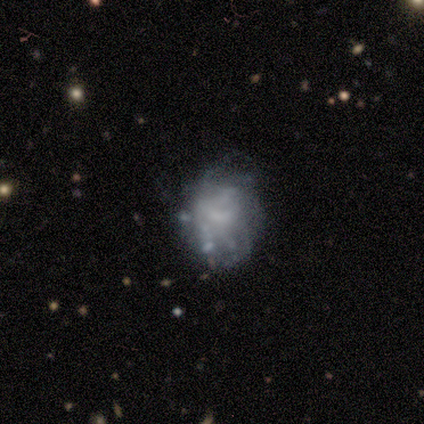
Smooth or featured? 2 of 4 (50%, tied with featured or disk) said smooth. How rounded? 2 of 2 (100%) said in between. Merging? 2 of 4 (50%) said none.